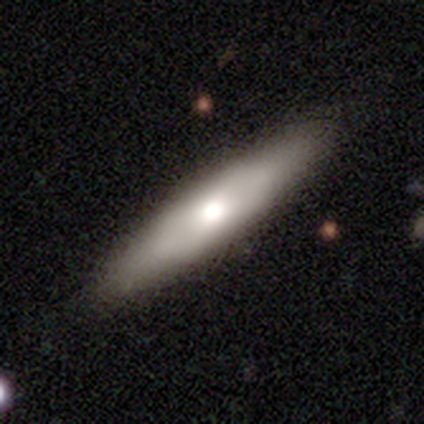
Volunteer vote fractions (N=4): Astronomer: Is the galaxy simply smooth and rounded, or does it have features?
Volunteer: smooth — 75%.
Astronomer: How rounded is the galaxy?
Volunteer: cigar-shaped — 100%.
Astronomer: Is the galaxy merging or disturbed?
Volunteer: none — 75%.